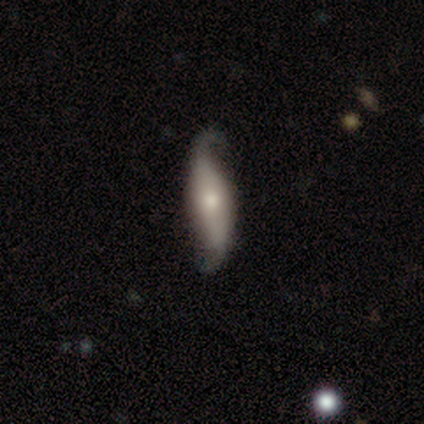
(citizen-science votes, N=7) Smooth or featured: featured or disk — 86% (smooth — 14%)
Edge-on disk: no — 100%
Bar: no — 50% (strong — 33%)
Spiral arms: yes — 100%
Spiral winding: loose — 100%
Spiral arm count: 2 — 100%
Bulge size: moderate — 83% (small — 17%)
Merging: none — 86% (minor disturbance — 14%)